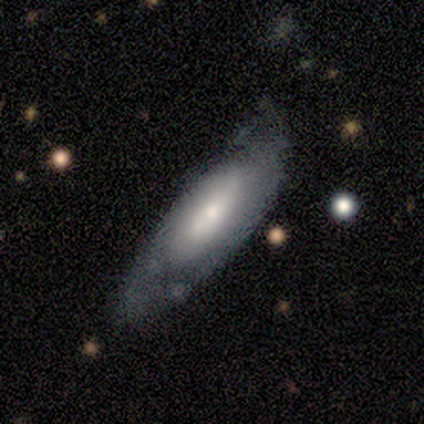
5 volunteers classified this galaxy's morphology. This is clearly a smooth galaxy (100%). How rounded: likely in between (60%). Merging: likely minor disturbance (60%).